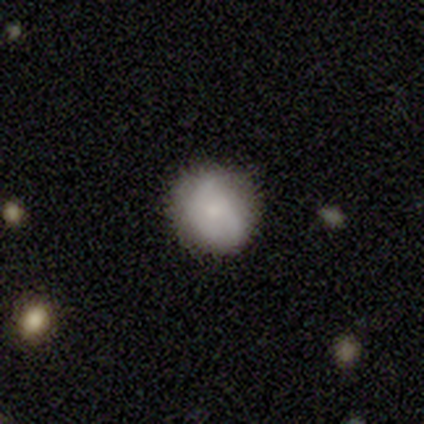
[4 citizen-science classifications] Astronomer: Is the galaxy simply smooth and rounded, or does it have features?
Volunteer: smooth — 75%.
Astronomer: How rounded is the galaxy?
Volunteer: round — 100%.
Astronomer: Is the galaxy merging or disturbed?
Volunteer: none — 50%, tied with minor disturbance at 50%.